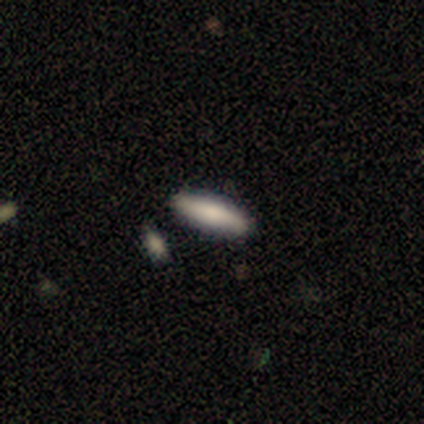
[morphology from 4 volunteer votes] smooth 100%, featured or disk 0%, star or artifact 0%. Down the decision tree: how rounded — cigar-shaped (75%); merging — none (75%).